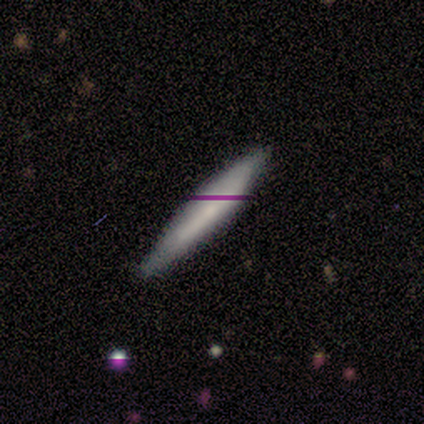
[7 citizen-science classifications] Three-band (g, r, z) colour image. It shows a smooth galaxy with no disk features (86%) that is cigar-shaped (100%). Merging: none (71%).